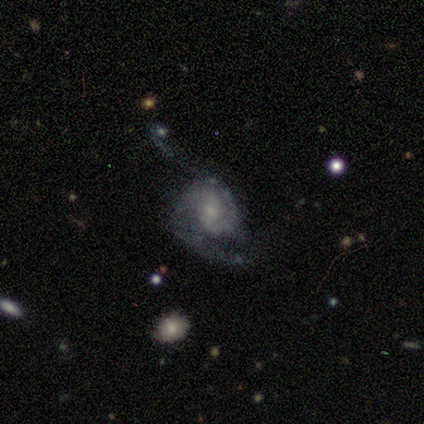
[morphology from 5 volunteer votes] smooth-or-featured: featured or disk: 80% | smooth: 20% | star or artifact: 0%
  disk-edge-on: no: 100% | yes: 0%
    bar: no: 75% | weak: 25% | strong: 0%
    has-spiral-arms: yes: 100% | no: 0%
      spiral-winding: medium: 50% | tight: 25% | loose: 25%
      spiral-arm-count: can't tell: 75% | 2: 25% | 1: 0% | 3: 0% | 4: 0% | more than 4: 0%
    bulge-size: small: 75% | none: 25% | dominant: 0% | large: 0% | moderate: 0%
  merging: major disturbance: 80% | none: 20% | minor disturbance: 0% | merger: 0%